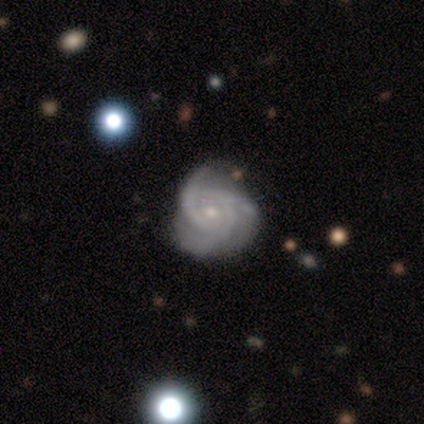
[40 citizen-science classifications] smooth-or-featured: featured or disk: 95% | smooth: 2% | star or artifact: 2%
  disk-edge-on: no: 97% | yes: 3%
    bar: no: 76% | weak: 24% | strong: 0%
    has-spiral-arms: yes: 100% | no: 0%
      spiral-winding: tight: 70% | medium: 27% | loose: 3%
      spiral-arm-count: 3: 89% | can't tell: 5% | 2: 3% | 4: 3% | 1: 0% | more than 4: 0%
    bulge-size: small: 65% | moderate: 30% | dominant: 3% | none: 3% | large: 0%
  merging: none: 82% | minor disturbance: 18% | major disturbance: 0% | merger: 0%